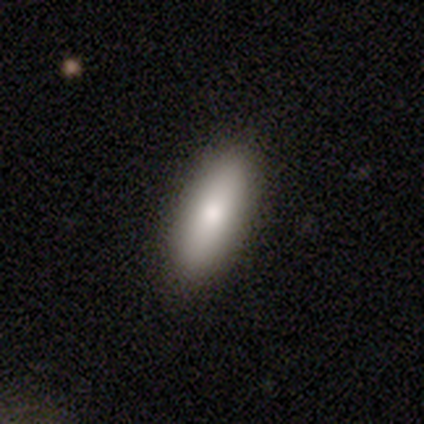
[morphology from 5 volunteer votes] Smooth or featured?
  - smooth: 100% *
  - featured or disk: 0%
  - star or artifact: 0%
How rounded?
  - in between: 80% *
  - round: 20%
  - cigar-shaped: 0%
Merging?
  - none: 80% *
  - major disturbance: 20%
  - minor disturbance: 0%
  - merger: 0%